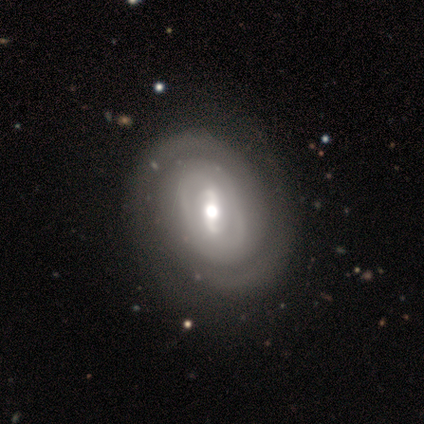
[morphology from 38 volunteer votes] A featured or disk galaxy (87%) with a strong bar (45%, tied with weak), 2 (67%) tight (60%) spiral arms (91%) and a moderate central bulge (58%). Merging: none (58%).